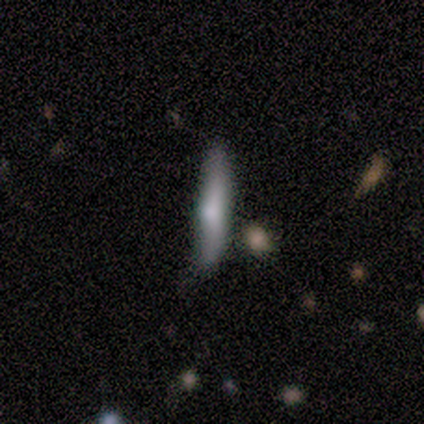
Q: Smooth or featured?
A: featured or disk (75%); runner-up: smooth (25%)
Q: Edge-on disk?
A: yes (100%)
Q: Edge-on bulge?
A: rounded (100%)
Q: Merging?
A: none (100%)